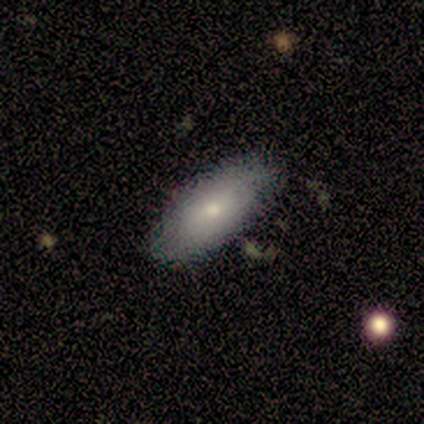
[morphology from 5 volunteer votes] Smooth or featured: smooth — 100%
How rounded: in between — 80% (cigar-shaped — 20%)
Merging: none — 100%